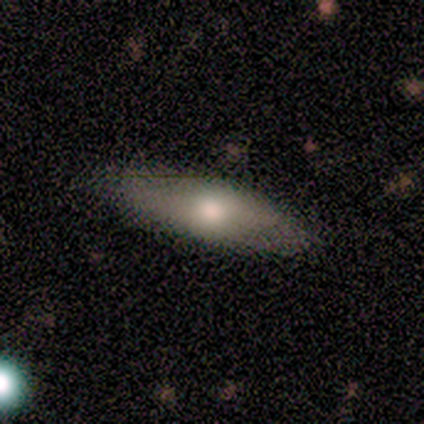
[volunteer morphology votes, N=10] Q: Smooth or featured?
A: smooth (80%); runner-up: featured or disk (20%)
Q: How rounded?
A: cigar-shaped (62%); runner-up: in between (38%)
Q: Merging?
A: none (60%); runner-up: minor disturbance (30%)